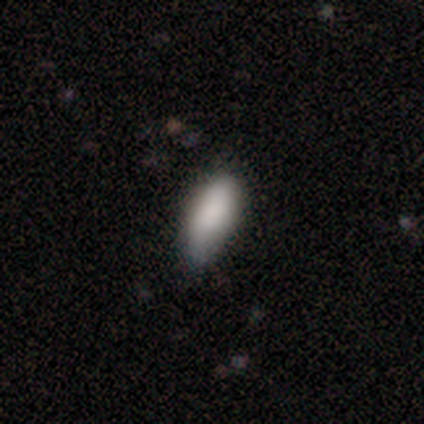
smooth_or_featured: smooth (p=0.92) [alt: star or artifact p=0.06]
how_rounded: in between (p=0.81) [alt: cigar-shaped p=0.17]
merging: none (p=0.55) [alt: minor disturbance p=0.38]